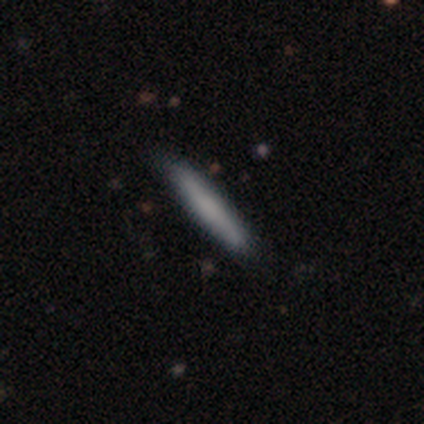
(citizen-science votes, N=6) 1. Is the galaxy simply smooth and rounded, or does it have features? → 83% smooth, 17% featured or disk, 0% star or artifact.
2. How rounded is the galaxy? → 100% cigar-shaped, 0% round, 0% in between.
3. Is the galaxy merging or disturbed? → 100% none, 0% minor disturbance, 0% major disturbance, 0% merger.